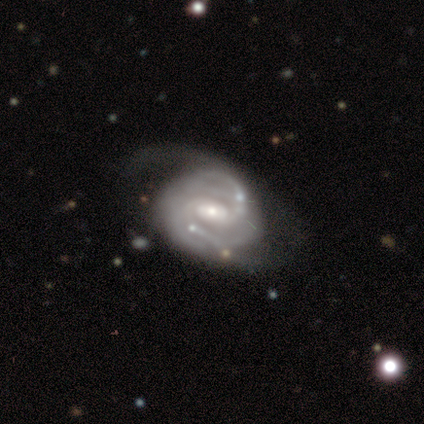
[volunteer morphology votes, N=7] Volunteers were most divided on "merging" (3-way tie): none: 29%, minor disturbance: 29%, major disturbance: 29%, merger: 14%. More confident: edge-on disk — no (100%); spiral arms — yes (100%); smooth or featured — featured or disk (86%); spiral winding — medium (83%); spiral arm count — 2 (83%); bulge size — moderate (67%); bar — weak (50%).